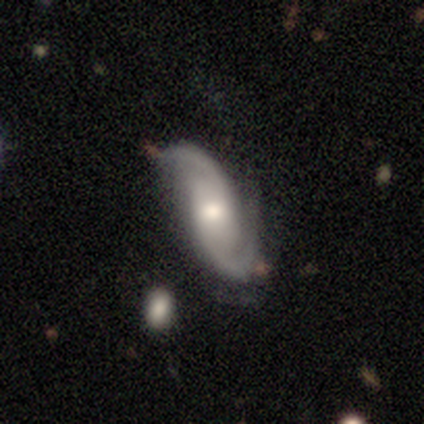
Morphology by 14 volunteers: Smooth or featured? featured or disk (86%)
Edge-on disk? no (92%)
Bar? no (91%)
Spiral arms? yes (91%)
Spiral winding? tight (40%, tied with medium)
Spiral arm count? 2 (90%)
Bulge size? moderate (55%)
Merging? none (69%)